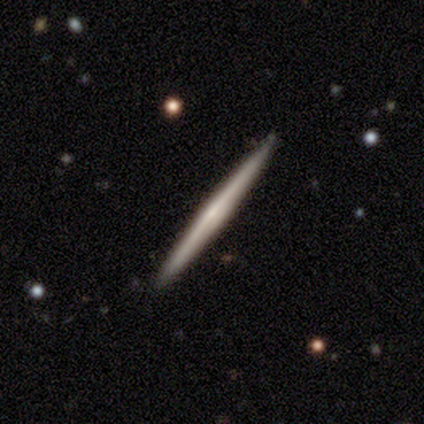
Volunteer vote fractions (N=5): Smooth or featured?
  - featured or disk: 80% *
  - smooth: 20%
  - star or artifact: 0%
Edge-on disk?
  - yes: 100% *
  - no: 0%
Edge-on bulge?
  - none: 75% *
  - rounded: 25%
  - boxy: 0%
Merging?
  - none: 100% *
  - minor disturbance: 0%
  - major disturbance: 0%
  - merger: 0%